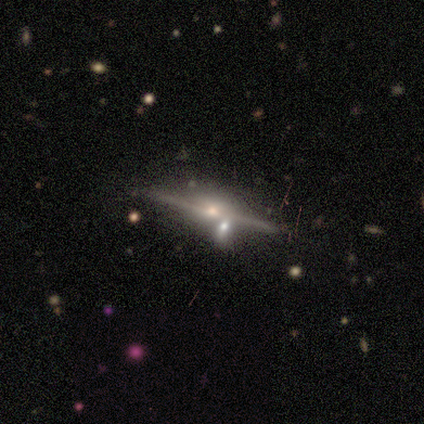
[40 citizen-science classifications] smooth-or-featured: featured or disk: 88% | star or artifact: 12% | smooth: 0%
  disk-edge-on: yes: 97% | no: 3%
    edge-on-bulge: rounded: 94% | boxy: 6% | none: 0%
  merging: none: 57% | merger: 37% | minor disturbance: 6% | major disturbance: 0%